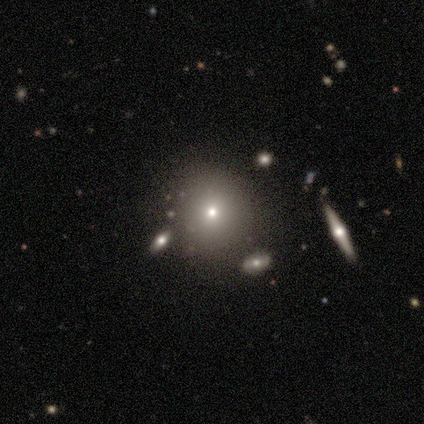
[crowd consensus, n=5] Smooth or featured: smooth — 60% (featured or disk — 20%)
How rounded: round — 100%
Merging: none — 100%